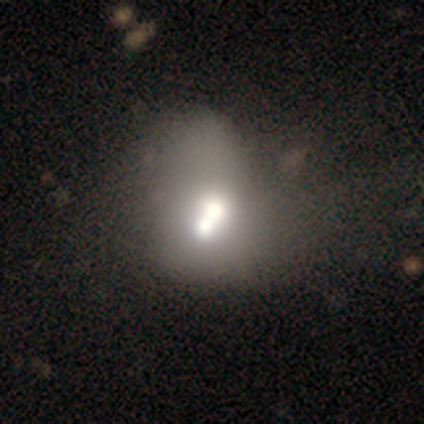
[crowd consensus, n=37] smooth_or_featured: featured or disk (p=0.51) [alt: smooth p=0.41]
disk_edge_on: no (p=1.00)
bar: no (p=0.89) [alt: weak p=0.11]
has_spiral_arms: no (p=1.00)
bulge_size: moderate (p=0.74) [alt: large p=0.16]
merging: merger (p=0.74) [alt: none p=0.06]